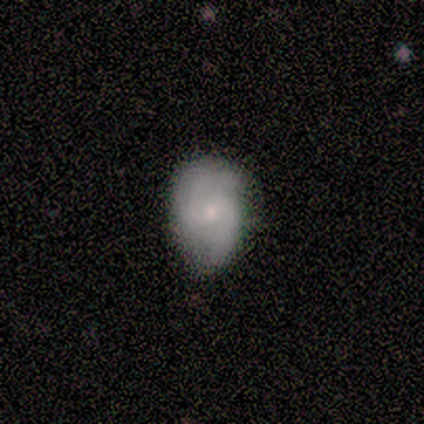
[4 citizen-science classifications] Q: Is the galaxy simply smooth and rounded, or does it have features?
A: featured or disk — 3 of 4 (75%).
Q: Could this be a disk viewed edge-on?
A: no — 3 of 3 (100%).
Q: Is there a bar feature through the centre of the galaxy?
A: no — 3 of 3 (100%).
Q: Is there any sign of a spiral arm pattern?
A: yes — 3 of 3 (100%).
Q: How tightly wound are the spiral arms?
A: tight — 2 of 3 (67%).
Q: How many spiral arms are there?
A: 2 — 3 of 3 (100%).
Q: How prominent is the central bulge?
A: small — 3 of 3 (100%).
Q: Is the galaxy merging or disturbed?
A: minor disturbance — 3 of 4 (75%).